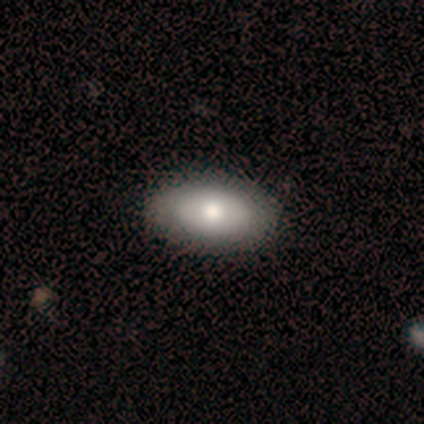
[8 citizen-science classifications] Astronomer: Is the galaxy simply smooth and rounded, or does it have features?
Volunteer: featured or disk — 62%.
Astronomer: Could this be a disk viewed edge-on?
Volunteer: no — 100%.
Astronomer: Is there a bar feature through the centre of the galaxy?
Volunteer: no — 80%.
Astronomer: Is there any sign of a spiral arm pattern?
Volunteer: no — 100%.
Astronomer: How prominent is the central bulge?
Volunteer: moderate — 100%.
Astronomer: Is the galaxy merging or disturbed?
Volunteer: none — 100%.